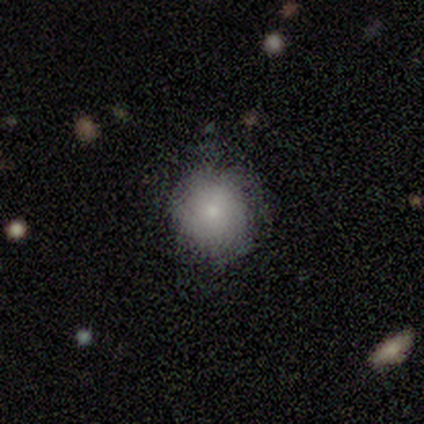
Volunteers were most divided on "smooth or featured": smooth: 80%, featured or disk: 20%, star or artifact: 0%. More confident: how rounded — round (100%); merging — none (80%).